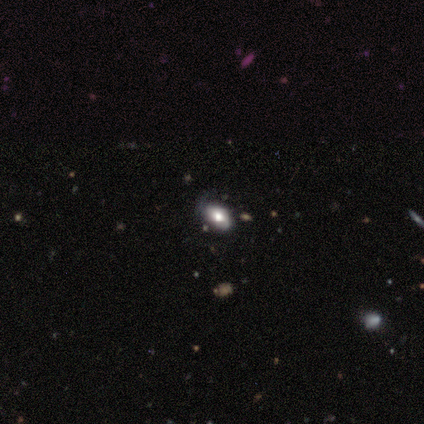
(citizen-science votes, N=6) This is clearly a smooth galaxy (83%). How rounded: likely in between (60%). Merging: possibly none (50%).